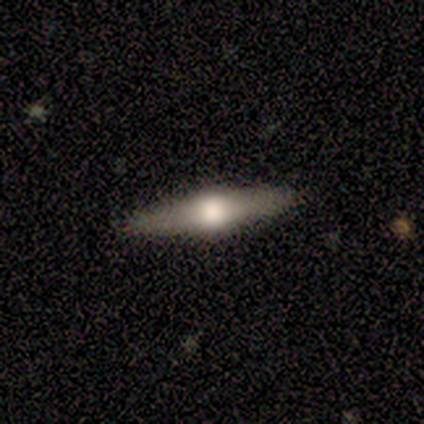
Smooth or featured: featured or disk — 66% (smooth — 26%)
Edge-on disk: yes — 97% (no — 3%)
Edge-on bulge: rounded — 100%
Merging: none — 96% (major disturbance — 4%)